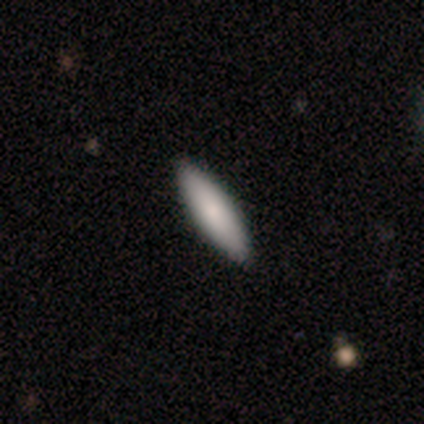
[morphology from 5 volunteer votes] A smooth galaxy with no disk features (100%) that is cigar-shaped (100%).

Vote fractions:
- Smooth or featured? smooth: 100% / featured or disk: 0% / star or artifact: 0%
- How rounded? cigar-shaped: 100% / round: 0% / in between: 0%
- Merging? none: 60% / minor disturbance: 20% / merger: 20% / major disturbance: 0%